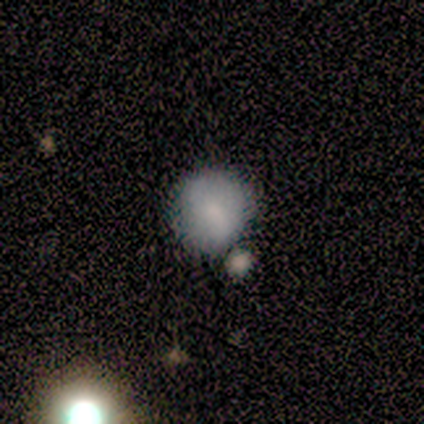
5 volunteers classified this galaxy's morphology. Smooth or featured? smooth (80%)
How rounded? round (75%)
Merging? none (60%)